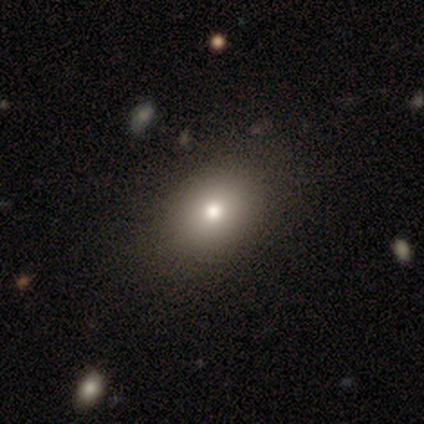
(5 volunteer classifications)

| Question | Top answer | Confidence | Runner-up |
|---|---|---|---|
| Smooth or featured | smooth | 80% | star or artifact (20%) |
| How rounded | in between | 75% | round (25%) |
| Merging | none | 100% | — |